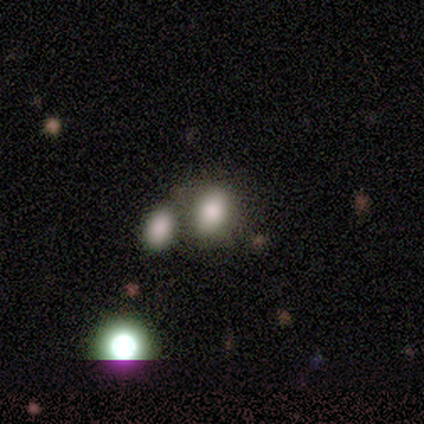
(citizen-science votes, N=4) A smooth galaxy with no disk features (75%) that is in between round and cigar-shaped (67%).

Vote fractions:
- Smooth or featured? smooth: 75% / featured or disk: 25% / star or artifact: 0%
- How rounded? in between: 67% / round: 33% / cigar-shaped: 0%
- Merging? none: 50% / minor disturbance: 25% / major disturbance: 25% / merger: 0%